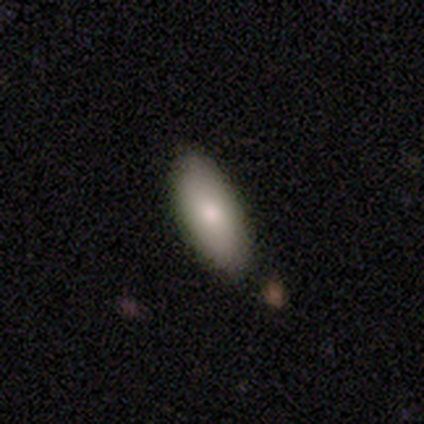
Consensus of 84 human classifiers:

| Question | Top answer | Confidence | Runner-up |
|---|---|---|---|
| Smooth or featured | smooth | 81% | featured or disk (13%) |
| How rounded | in between | 76% | cigar-shaped (24%) |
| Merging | none | 80% | minor disturbance (15%) |